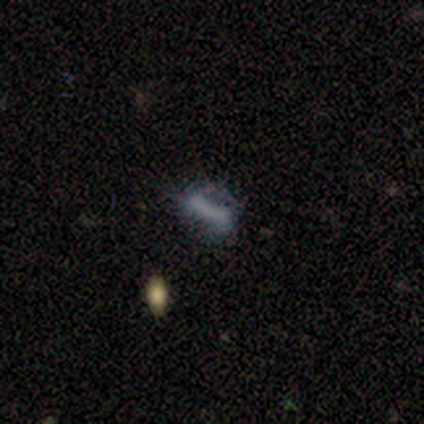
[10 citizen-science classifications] smooth_or_featured: featured or disk (p=0.60) [alt: smooth p=0.40]
disk_edge_on: no (p=0.67) [alt: yes p=0.33]
bar: strong (p=0.50) [tied with: no p=0.50]
has_spiral_arms: no (p=1.00)
bulge_size: none (p=0.75) [alt: moderate p=0.25]
merging: none (p=0.80) [alt: minor disturbance p=0.20]